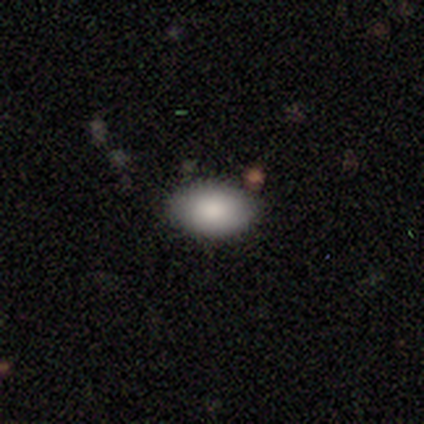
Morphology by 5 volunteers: smooth_or_featured: smooth (p=0.80) [alt: star or artifact p=0.20]
how_rounded: round (p=0.50) [tied with: in between p=0.50]
merging: none (p=1.00)